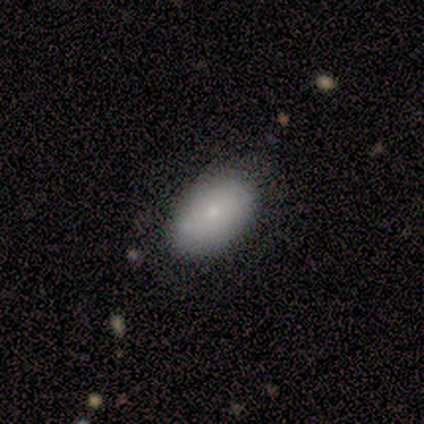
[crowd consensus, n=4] Smooth or featured?
  - star or artifact: 50% *
  - smooth: 25%
  - featured or disk: 25%